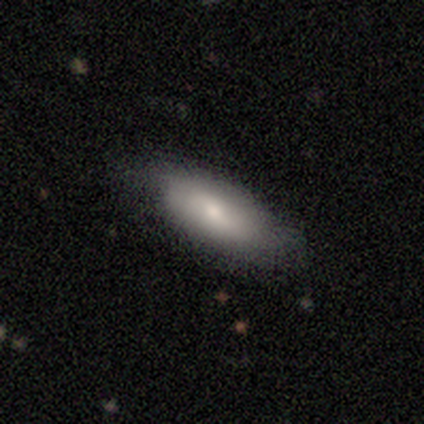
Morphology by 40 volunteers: Smooth or featured? 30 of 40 (75%) said smooth. How rounded? 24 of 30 (80%) said in between. Merging? 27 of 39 (69%) said none.